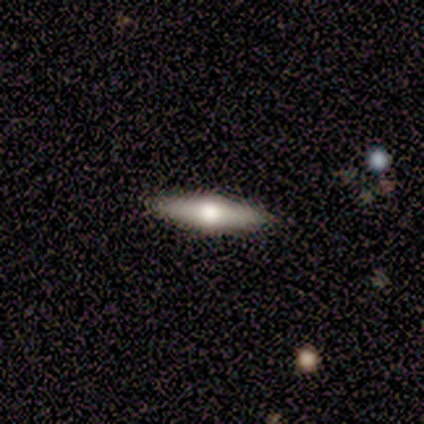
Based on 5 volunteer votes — A featured or disk galaxy (60%) viewed edge-on (100%) with a rounded central bulge (100%). Merging: none (100%).